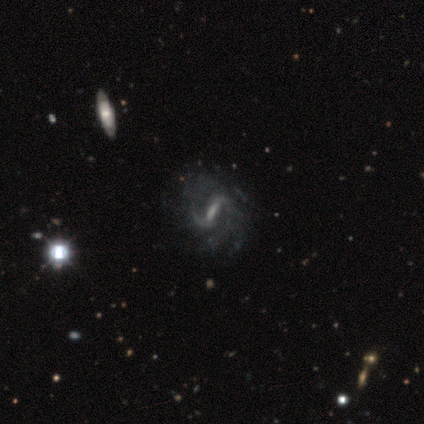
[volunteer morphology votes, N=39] A featured or disk galaxy (92%) with a strong bar (51%), 2 (59%) medium (62%) spiral arms (91%) and a small central bulge (51%).

Vote fractions:
- Smooth or featured? featured or disk: 92% / star or artifact: 8% / smooth: 0%
- Edge-on disk? no: 97% / yes: 3%
- Bar? strong: 51% / weak: 49% / no: 0%
- Spiral arms? yes: 91% / no: 9%
- Spiral winding? medium: 62% / loose: 22% / tight: 16%
- Spiral arm count? 2: 59% / can't tell: 19% / 1: 9% / 3: 9% / more than 4: 3% / 4: 0%
- Bulge size? small: 51% / none: 26% / moderate: 17% / dominant: 3% / large: 3%
- Merging? none: 47% / minor disturbance: 11% / major disturbance: 8% / merger: 3%